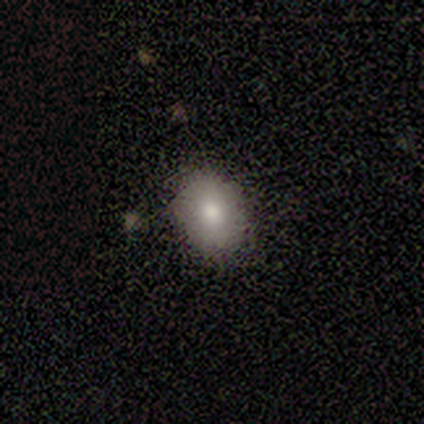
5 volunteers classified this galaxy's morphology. smooth_or_featured: smooth (p=1.00)
how_rounded: round (p=0.60) [alt: in between p=0.40]
merging: none (p=0.60) [alt: minor disturbance p=0.40]